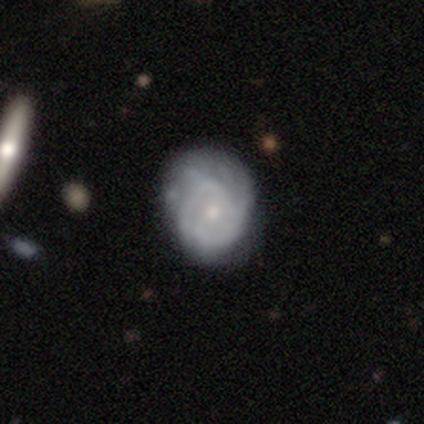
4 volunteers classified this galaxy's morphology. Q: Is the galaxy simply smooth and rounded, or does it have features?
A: featured or disk — 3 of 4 (75%).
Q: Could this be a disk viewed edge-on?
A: no — 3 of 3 (100%).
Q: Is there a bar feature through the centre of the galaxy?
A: no — 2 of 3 (67%).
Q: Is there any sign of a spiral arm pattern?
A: yes — 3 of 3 (100%).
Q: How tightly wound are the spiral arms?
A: tight — 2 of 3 (67%).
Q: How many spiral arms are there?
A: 2 — 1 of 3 (33%, tied with 3 and can't tell).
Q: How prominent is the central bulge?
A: small — 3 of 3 (100%).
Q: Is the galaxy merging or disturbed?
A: none — 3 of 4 (75%).